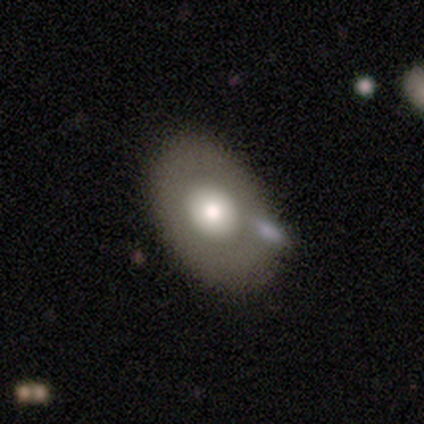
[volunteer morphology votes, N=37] smooth-or-featured: featured or disk: 57% | smooth: 38% | star or artifact: 5%
  disk-edge-on: no: 90% | yes: 10%
    bar: no: 95% | weak: 5% | strong: 0%
    has-spiral-arms: no: 100% | yes: 0%
    bulge-size: moderate: 63% | large: 37% | dominant: 0% | small: 0% | none: 0%
  merging: none: 74% | minor disturbance: 14% | major disturbance: 6% | merger: 6%